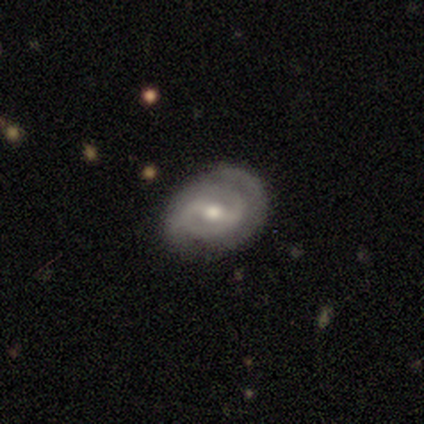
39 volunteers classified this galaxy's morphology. Smooth or featured? 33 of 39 (85%) said featured or disk. Edge-on disk? 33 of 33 (100%) said no. Bar? 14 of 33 (42%) said weak. Spiral arms? 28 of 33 (85%) said yes. Spiral winding? 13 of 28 (46%) said tight. Spiral arm count? 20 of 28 (71%) said 2. Bulge size? 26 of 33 (79%) said moderate. Merging? 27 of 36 (75%) said none.